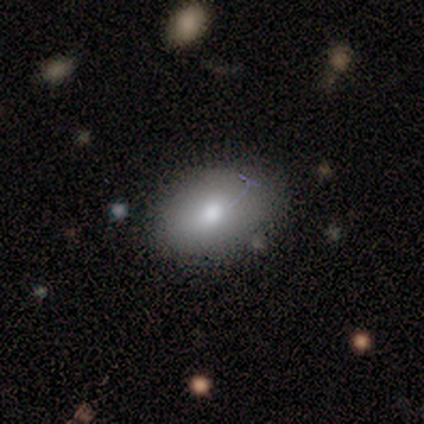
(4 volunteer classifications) A smooth galaxy with no disk features (75%) that is in between round and cigar-shaped (100%).

Vote fractions:
- Smooth or featured? smooth: 75% / featured or disk: 25% / star or artifact: 0%
- How rounded? in between: 100% / round: 0% / cigar-shaped: 0%
- Merging? none: 50% (tied) / minor disturbance: 50% (tied) / major disturbance: 0% / merger: 0%